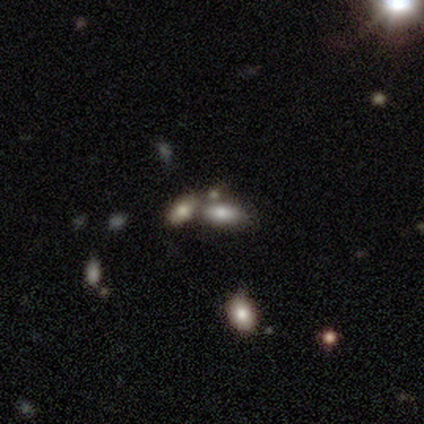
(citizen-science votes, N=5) Smooth or featured? 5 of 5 (100%) said smooth. How rounded? 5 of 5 (100%) said in between. Merging? 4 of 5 (80%) said none.